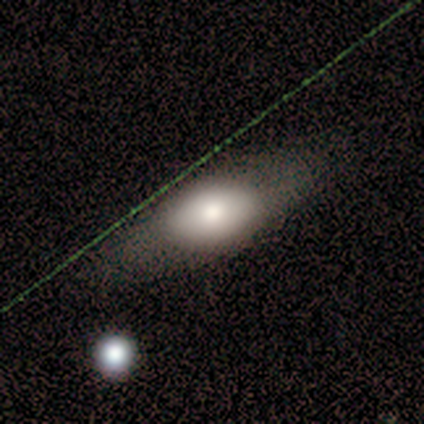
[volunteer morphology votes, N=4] type=smooth (50%, tied with featured or disk); roundness=in between (100%); merging=none (75%).